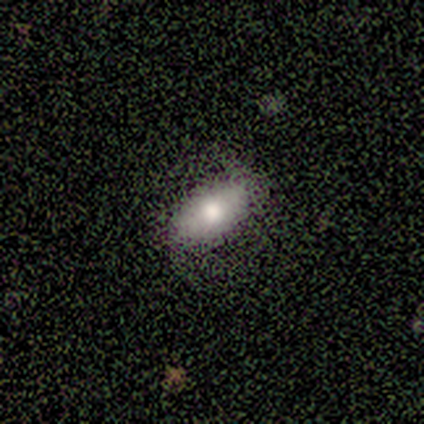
Smooth or featured: smooth — 40% (tied with featured or disk — 40%)
How rounded: in between — 100%
Merging: none — 75% (minor disturbance — 25%)